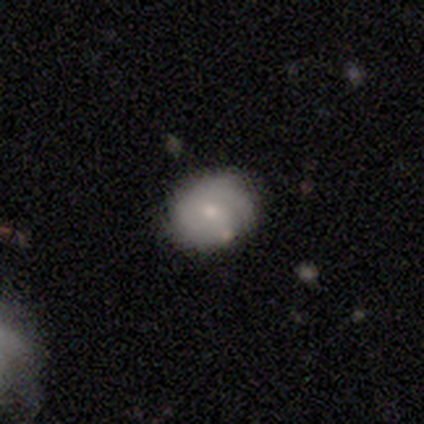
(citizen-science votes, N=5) This appears to be a smooth galaxy with no disk features (60%) that is round (67%). Merging: none (80%).